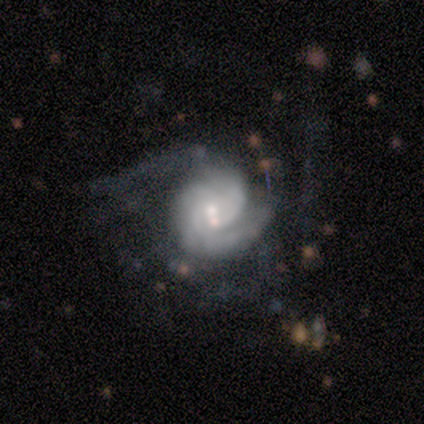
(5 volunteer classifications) Overall: featured or disk (100%). Edge-on disk: no (100%). Bar: weak (40%, tied with no). Spiral arms: yes (100%). Spiral arm count: 2 (40%, tied with 3). Spiral winding: tight (40%, tied with medium). Bulge size: moderate (80%). Merging: major disturbance (40%; none 20%).